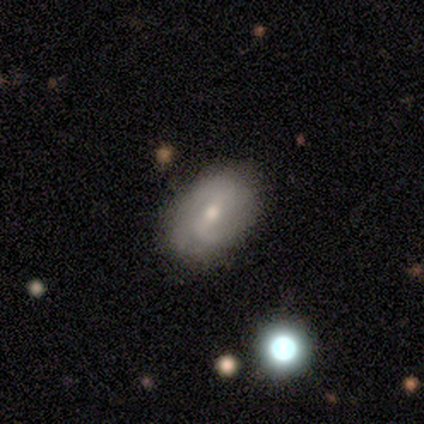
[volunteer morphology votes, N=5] This is clearly a featured or disk galaxy (80%). It is clearly not viewed edge-on (100%). Bar: likely weak (75%). Spiral arm pattern: clearly yes (100%). Spiral arm count: possibly can't tell (50%). Spiral winding: likely medium (75%). Central bulge: likely small (75%). Merging: clearly none (100%).